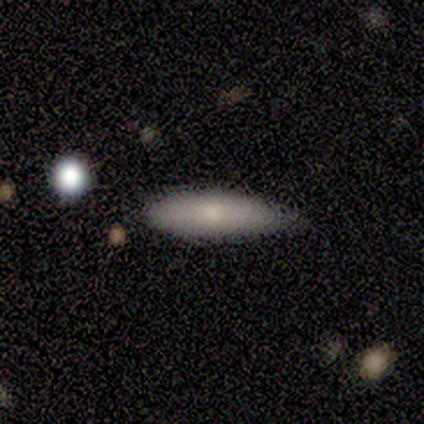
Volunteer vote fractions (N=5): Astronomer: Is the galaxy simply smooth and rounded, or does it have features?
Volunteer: smooth — 40%, tied with featured or disk at 40%.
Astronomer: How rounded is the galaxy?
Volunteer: cigar-shaped — 100%.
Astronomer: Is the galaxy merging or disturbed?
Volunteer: none — 75%.